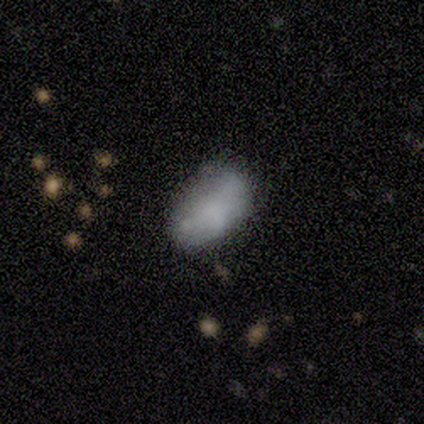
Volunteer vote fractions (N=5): A smooth galaxy with no disk features (80%) that is in between round and cigar-shaped (75%).

Vote fractions:
- Smooth or featured? smooth: 80% / featured or disk: 20% / star or artifact: 0%
- How rounded? in between: 75% / round: 25% / cigar-shaped: 0%
- Merging? none: 40% (tied) / minor disturbance: 40% (tied) / merger: 20% / major disturbance: 0%